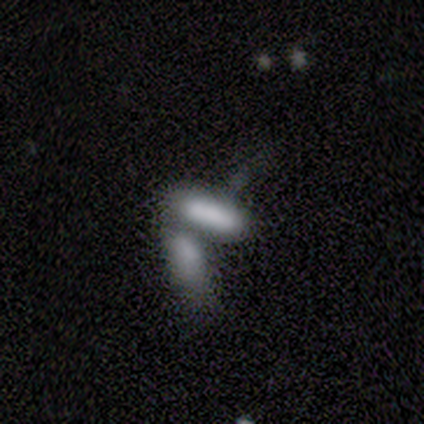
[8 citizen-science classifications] Volunteers were most divided on "how rounded": in between: 57%, cigar-shaped: 43%, round: 0%. More confident: smooth or featured — smooth (88%); merging — merger (75%).